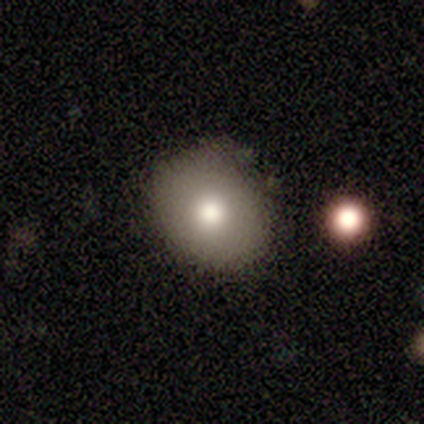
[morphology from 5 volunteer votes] smooth-or-featured: smooth: 100% | featured or disk: 0% | star or artifact: 0%
  how-rounded: round: 60% | in between: 40% | cigar-shaped: 0%
  merging: none: 60% | minor disturbance: 40% | major disturbance: 0% | merger: 0%